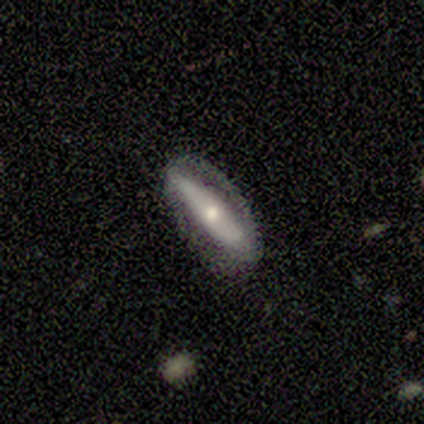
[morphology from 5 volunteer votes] This is likely a featured or disk galaxy (60%). It is likely viewed edge-on (67%). Edge-on bulge: clearly rounded (100%). Merging: likely none (60%).